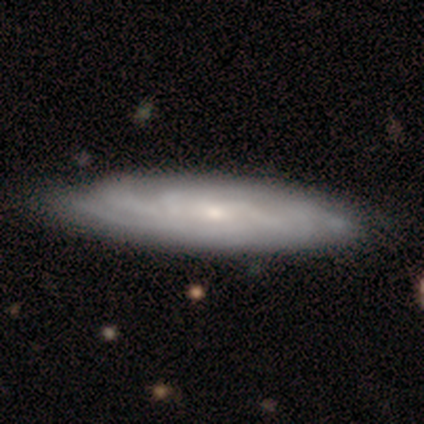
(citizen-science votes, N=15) featured or disk 80%, smooth 20%, star or artifact 0%. Down the decision tree: edge-on disk — no (83%); bar — no (60%); spiral arms — yes (100%); spiral arm count — can't tell (50%); spiral winding — tight (70%); bulge size — small (50%); merging — none (87%).